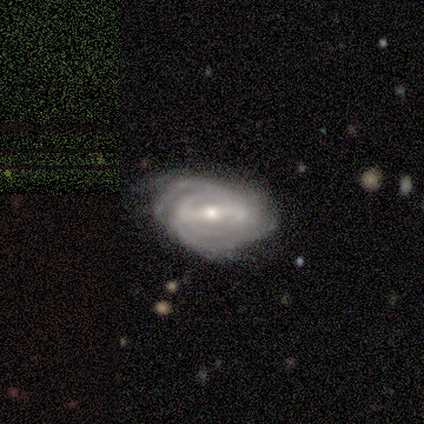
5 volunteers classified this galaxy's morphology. A featured or disk galaxy (80%) with a strong bar (75%), 4 (50%, tied with can't tell) tight (75%) spiral arms (100%) and a moderate central bulge (50%, tied with small). Merging: none (80%).